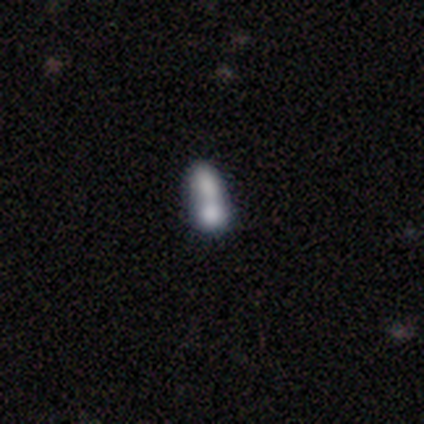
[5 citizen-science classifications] This appears to be a smooth galaxy with no disk features (60%) that is round (67%). Merging: merger (60%).